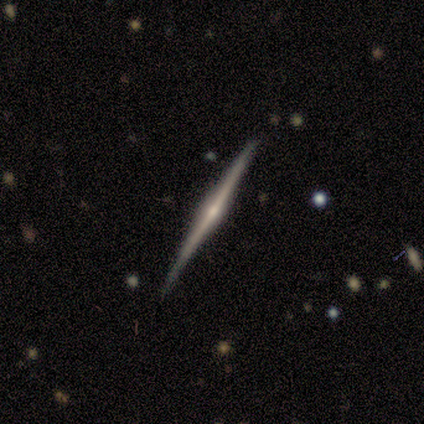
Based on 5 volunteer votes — Overall: featured or disk (100%). Edge-on disk: yes (100%). Edge-on bulge: rounded (100%). Merging: none (100%).